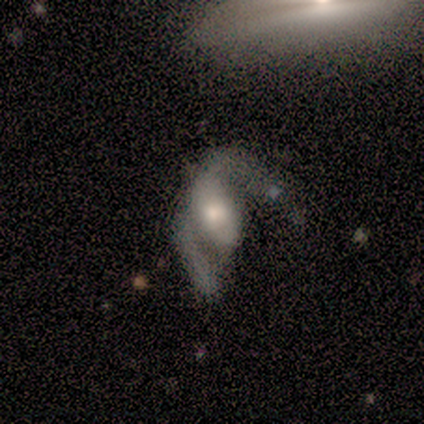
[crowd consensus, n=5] Smooth or featured? 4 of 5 (80%) said featured or disk. Edge-on disk? 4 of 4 (100%) said no. Bar? 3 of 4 (75%) said no. Spiral arms? 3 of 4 (75%) said yes. Spiral winding? 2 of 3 (67%) said loose. Spiral arm count? 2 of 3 (67%) said 2. Bulge size? 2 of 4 (50%, tied with moderate) said large. Merging? 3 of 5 (60%) said major disturbance.